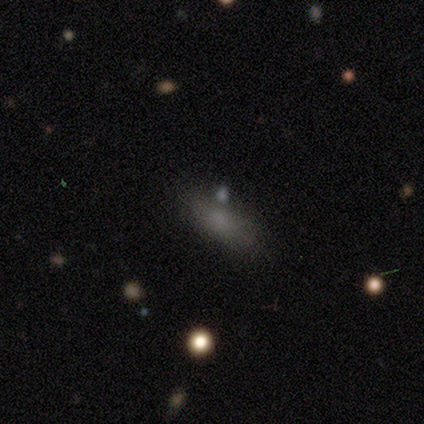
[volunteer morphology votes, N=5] Smooth or featured? smooth (80%)
How rounded? in between (100%)
Merging? none (75%)